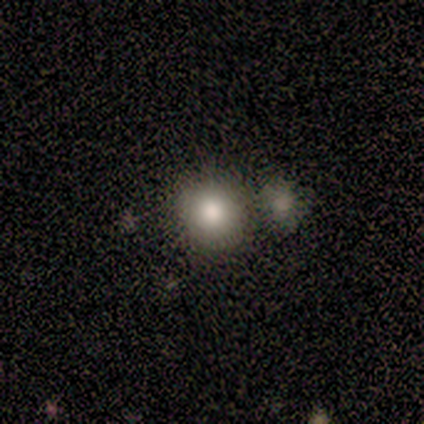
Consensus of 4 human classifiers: Overall: featured or disk (50%; smooth 25%). Edge-on disk: yes (50%, tied with no). Edge-on bulge: boxy (100%). Merging: none (67%; merger 33%).